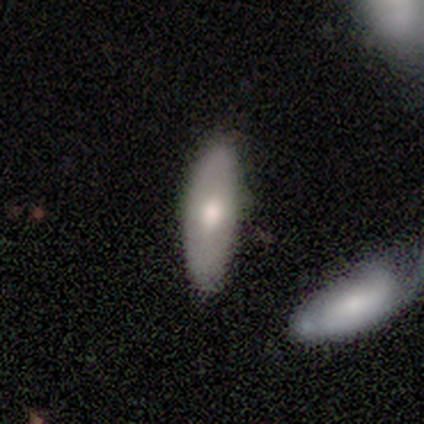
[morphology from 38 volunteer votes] Q: Smooth or featured?
A: smooth (66%); runner-up: featured or disk (32%)
Q: How rounded?
A: in between (64%); runner-up: cigar-shaped (36%)
Q: Merging?
A: none (68%); runner-up: minor disturbance (22%)